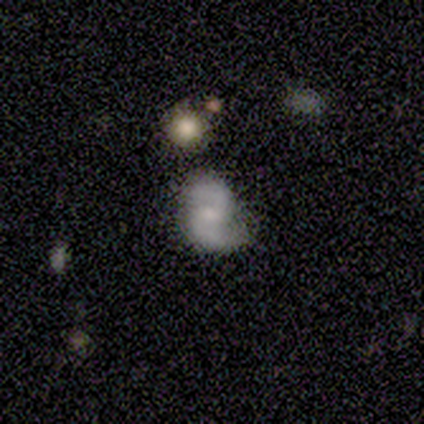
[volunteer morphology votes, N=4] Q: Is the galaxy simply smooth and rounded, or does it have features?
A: smooth — 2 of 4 (50%, tied with featured or disk).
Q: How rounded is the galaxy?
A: in between — 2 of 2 (100%).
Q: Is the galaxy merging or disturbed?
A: major disturbance — 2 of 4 (50%).